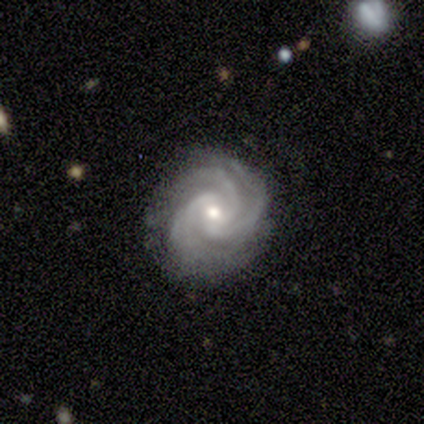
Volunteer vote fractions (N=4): Smooth or featured: featured or disk — 100%
Edge-on disk: no — 100%
Bar: strong — 50% (tied with no — 50%)
Spiral arms: yes — 100%
Spiral winding: tight — 100%
Spiral arm count: 3 — 50% (2 — 25%)
Bulge size: moderate — 50% (large — 25%)
Merging: none — 100%